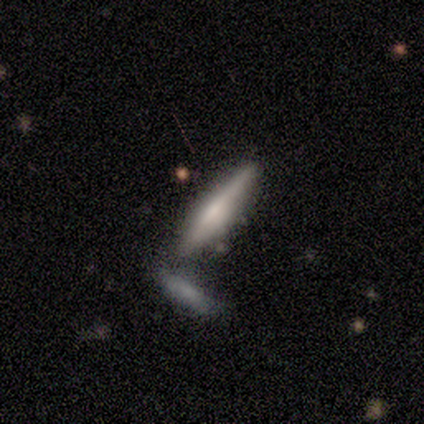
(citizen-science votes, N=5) Overall: smooth (60%; featured or disk 40%). How rounded: cigar-shaped (100%). Merging: none (100%).